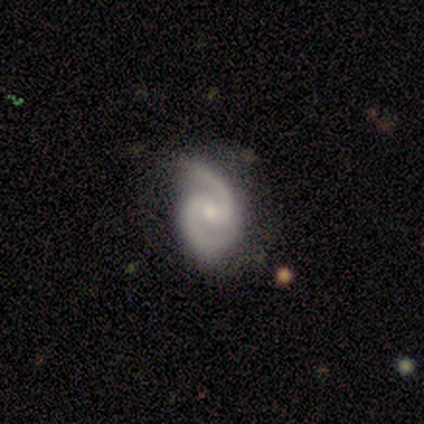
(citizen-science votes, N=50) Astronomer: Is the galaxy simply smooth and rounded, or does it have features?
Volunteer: featured or disk — 98%.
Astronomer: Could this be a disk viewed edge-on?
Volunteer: no — 100%.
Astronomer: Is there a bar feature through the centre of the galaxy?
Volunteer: weak — 55% (runner-up: no, 35%).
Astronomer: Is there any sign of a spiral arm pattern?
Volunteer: yes — 98%.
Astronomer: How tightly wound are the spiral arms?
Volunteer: medium — 67%.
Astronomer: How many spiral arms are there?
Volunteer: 2 — 100%.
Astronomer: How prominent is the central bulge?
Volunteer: small — 51% (runner-up: moderate, 39%).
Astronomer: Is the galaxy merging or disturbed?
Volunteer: none — 63%.